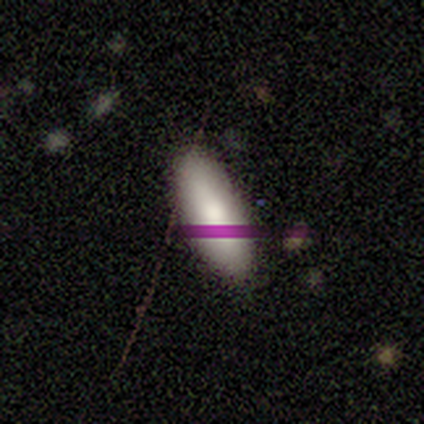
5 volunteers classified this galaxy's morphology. smooth-or-featured: smooth: 80% | featured or disk: 20% | star or artifact: 0%
  how-rounded: in between: 75% | cigar-shaped: 25% | round: 0%
  merging: none: 100% | minor disturbance: 0% | major disturbance: 0% | merger: 0%